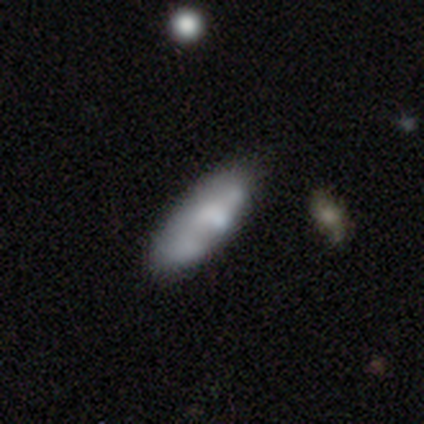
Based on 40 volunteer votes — This appears to be a smooth galaxy with no disk features (60%) that is in between round and cigar-shaped (67%). Merging: none (61%).